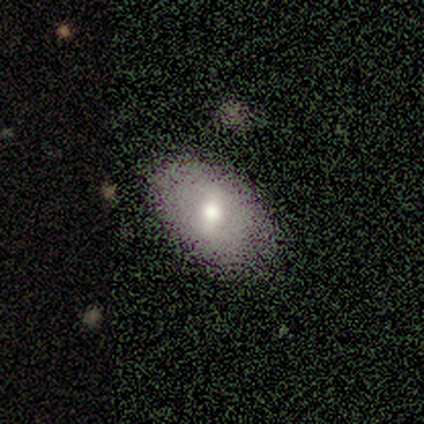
Volunteers were most divided on "merging": none: 60%, minor disturbance: 20%, merger: 20%, major disturbance: 0%. More confident: smooth or featured — smooth (100%); how rounded — in between (80%).